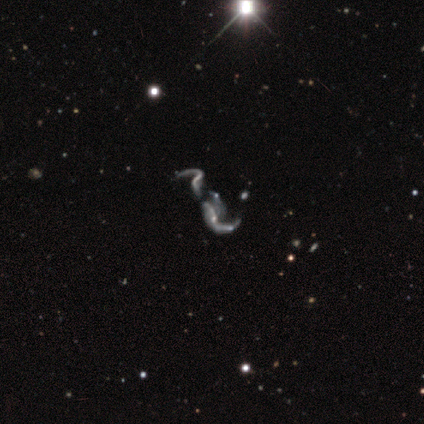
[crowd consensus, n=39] Morphology: type=featured or disk (82%); edge-on=no (97%); bar=no (77%); spiral arms=yes (71%); winding=loose (100%); arm count=2 (68%); bulge=none (71%); merging=merger (44%).